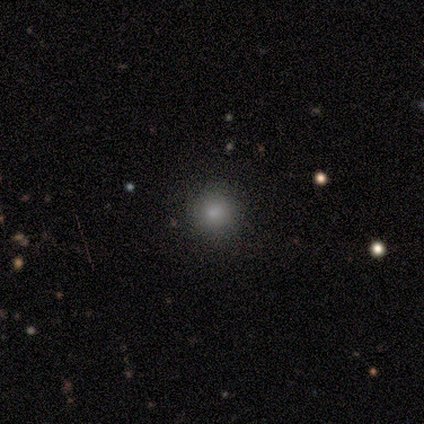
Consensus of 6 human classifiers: smooth-or-featured: smooth: 83% | star or artifact: 17% | featured or disk: 0%
  how-rounded: round: 100% | in between: 0% | cigar-shaped: 0%
  merging: none: 80% | minor disturbance: 20% | major disturbance: 0% | merger: 0%